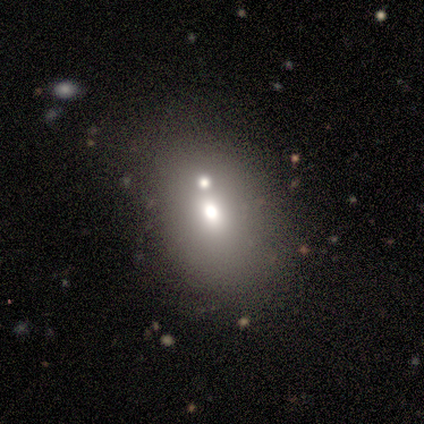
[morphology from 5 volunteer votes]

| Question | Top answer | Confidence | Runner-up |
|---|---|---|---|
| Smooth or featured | smooth | 40% | tied: featured or disk (40%) |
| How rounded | round | 100% | — |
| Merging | none | 50% | minor disturbance (25%) |